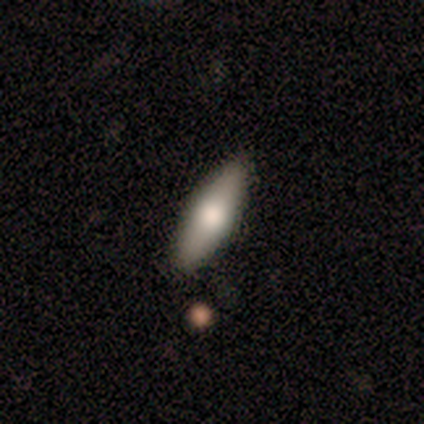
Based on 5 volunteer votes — A featured or disk galaxy (60%) viewed edge-on (100%) with a rounded central bulge (100%). Merging: none (80%).